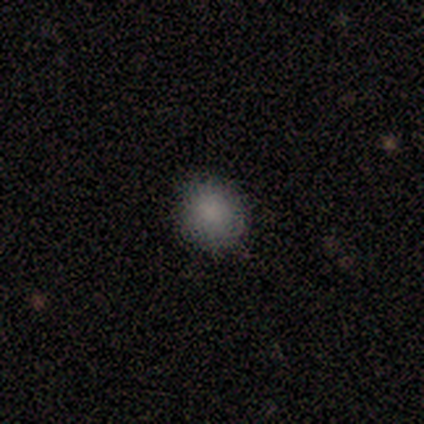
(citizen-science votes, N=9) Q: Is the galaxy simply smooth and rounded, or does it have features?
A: smooth — 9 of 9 (100%).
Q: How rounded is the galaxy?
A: round — 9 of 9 (100%).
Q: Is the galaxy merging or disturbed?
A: none — 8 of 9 (89%).